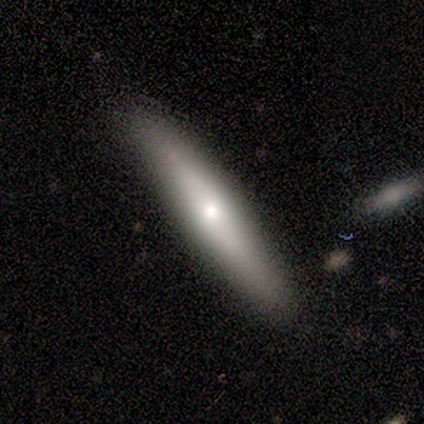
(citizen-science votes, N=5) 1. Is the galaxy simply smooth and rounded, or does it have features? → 60% featured or disk, 40% smooth, 0% star or artifact.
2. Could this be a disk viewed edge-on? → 100% yes, 0% no.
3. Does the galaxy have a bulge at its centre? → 100% rounded, 0% boxy, 0% none.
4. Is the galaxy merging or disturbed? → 60% none, 20% minor disturbance, 20% major disturbance, 0% merger.